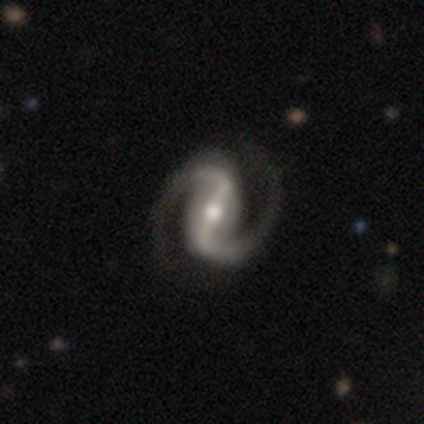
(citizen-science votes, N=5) This is clearly a featured or disk galaxy (100%). It is clearly not viewed edge-on (100%). Bar: clearly strong (80%). Spiral arm pattern: clearly yes (100%). Spiral arm count: clearly 2 (80%). Spiral winding: clearly medium (100%). Central bulge: clearly moderate (100%). Merging: clearly none (80%).